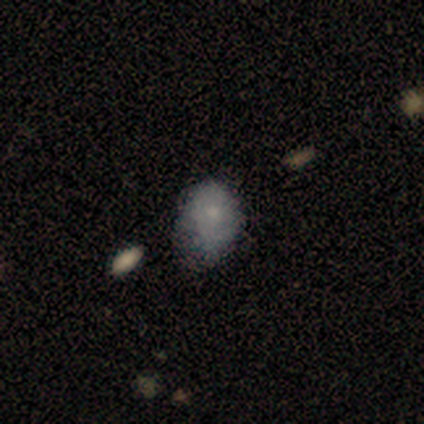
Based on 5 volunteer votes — Overall: smooth (100%). How rounded: in between (80%). Merging: minor disturbance (80%).